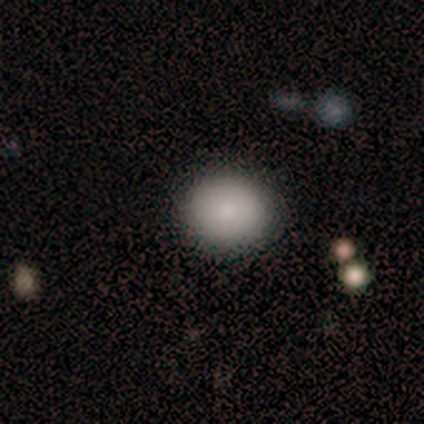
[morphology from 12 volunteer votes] Smooth or featured? smooth (100%)
How rounded? round (83%)
Merging? none (100%)